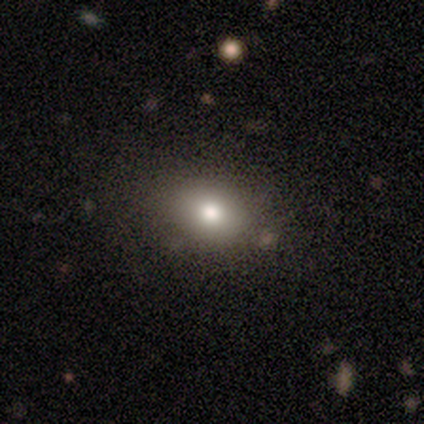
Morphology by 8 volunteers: A smooth galaxy with no disk features (75%) that is in between round and cigar-shaped (67%).

Vote fractions:
- Smooth or featured? smooth: 75% / featured or disk: 12% / star or artifact: 12%
- How rounded? in between: 67% / round: 33% / cigar-shaped: 0%
- Merging? none: 100% / minor disturbance: 0% / major disturbance: 0% / merger: 0%